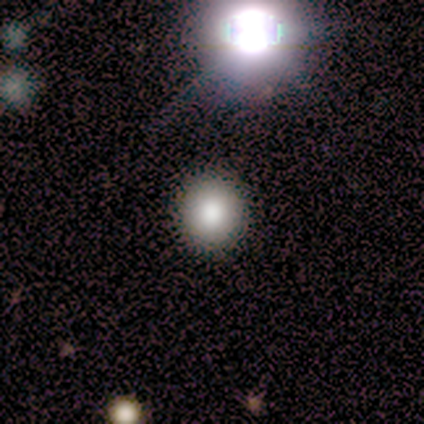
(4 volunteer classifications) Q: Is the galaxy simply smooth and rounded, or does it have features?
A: smooth — 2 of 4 (50%, tied with star or artifact).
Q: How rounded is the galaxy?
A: round — 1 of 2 (50%, tied with in between).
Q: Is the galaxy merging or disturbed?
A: none — 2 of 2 (100%).